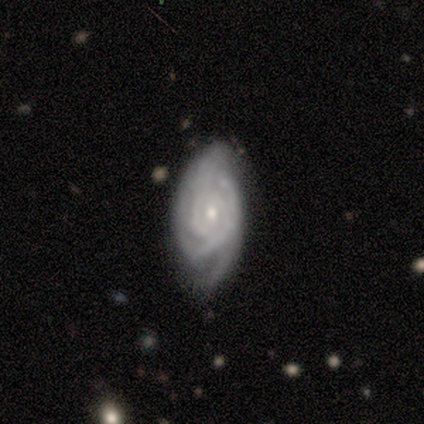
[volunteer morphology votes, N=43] A featured or disk galaxy (91%) with no bar (82%), 2 (44%) tight (83%) spiral arms (92%) and a moderate central bulge (51%).

Vote fractions:
- Smooth or featured? featured or disk: 91% / star or artifact: 7% / smooth: 2%
- Edge-on disk? no: 100% / yes: 0%
- Bar? no: 82% / weak: 18% / strong: 0%
- Spiral arms? yes: 92% / no: 8%
- Spiral winding? tight: 83% / medium: 14% / loose: 3%
- Spiral arm count? 2: 44% / can't tell: 28% / 3: 19% / 4: 6% / more than 4: 3% / 1: 0%
- Bulge size? moderate: 51% / small: 46% / none: 3% / dominant: 0% / large: 0%
- Merging? none: 60% / minor disturbance: 25% / major disturbance: 12% / merger: 2%